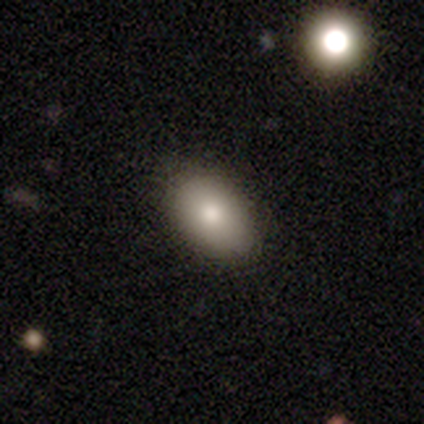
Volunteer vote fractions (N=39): Morphology: type=smooth (90%); roundness=in between (91%); merging=none (87%).